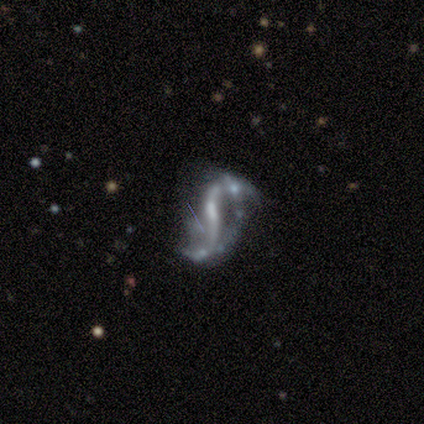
Smooth or featured?
  - featured or disk: 89% *
  - smooth: 6%
  - star or artifact: 6%
Edge-on disk?
  - no: 100% *
  - yes: 0%
Bar?
  - weak: 47% *
  - strong: 31%
  - no: 22%
Spiral arms?
  - yes: 94% *
  - no: 6%
Spiral winding?
  - loose: 93% *
  - tight: 3%
  - medium: 3%
Spiral arm count?
  - 2: 90% *
  - 1: 7%
  - can't tell: 3%
  - 3: 0%
  - 4: 0%
  - more than 4: 0%
Bulge size?
  - small: 62% *
  - moderate: 19%
  - none: 16%
  - large: 3%
  - dominant: 0%
Merging?
  - none: 41% *
  - minor disturbance: 24%
  - major disturbance: 18%
  - merger: 18%